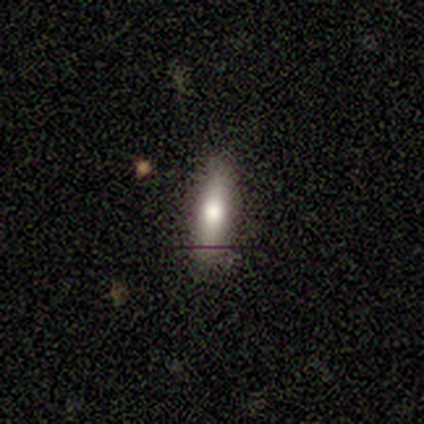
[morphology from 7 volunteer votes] This appears to be a smooth galaxy with no disk features (71%) that is cigar-shaped (100%). Merging: none (86%).